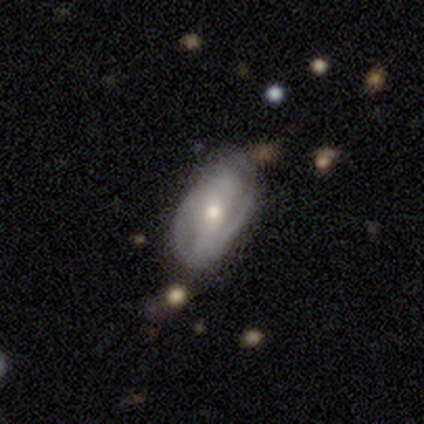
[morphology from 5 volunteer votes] featured or disk 100%, smooth 0%, star or artifact 0%. Down the decision tree: edge-on disk — no (100%); bar — weak (80%); spiral arms — yes (100%); spiral arm count — 2 (60%); spiral winding — medium (80%); bulge size — moderate (80%); merging — none (80%).